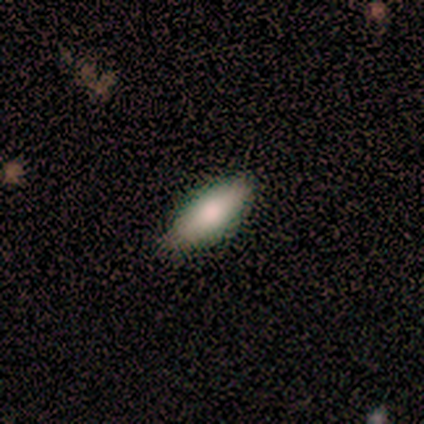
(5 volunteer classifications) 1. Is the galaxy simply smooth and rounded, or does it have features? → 100% smooth, 0% featured or disk, 0% star or artifact.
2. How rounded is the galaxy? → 60% in between, 40% cigar-shaped, 0% round.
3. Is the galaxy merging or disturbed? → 60% none, 40% minor disturbance, 0% major disturbance, 0% merger.